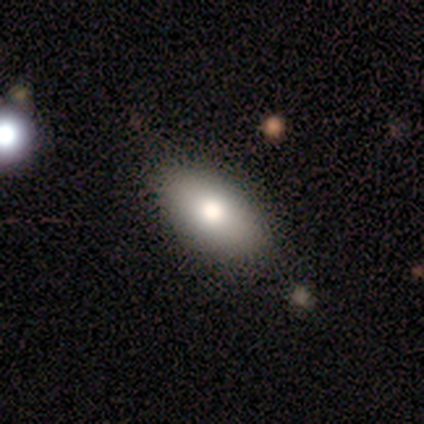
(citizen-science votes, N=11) smooth_or_featured: smooth (p=0.82) [alt: featured or disk p=0.18]
how_rounded: in between (p=1.00)
merging: none (p=0.82) [alt: minor disturbance p=0.18]